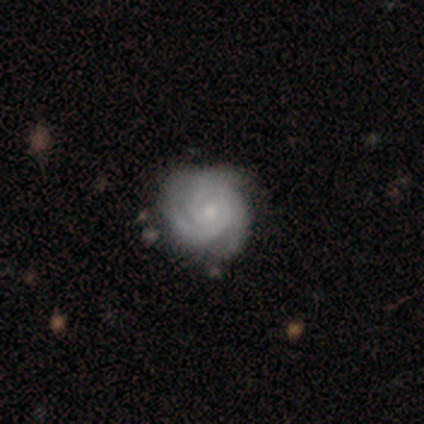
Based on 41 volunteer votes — Volunteers were most divided on "bulge size": small: 50%, moderate: 45%, large: 3%, none: 3%, dominant: 0%. More confident: edge-on disk — no (100%); spiral arms — yes (100%); smooth or featured — featured or disk (93%); spiral winding — tight (84%); bar — no (68%); merging — none (59%); spiral arm count — 2 (50%).